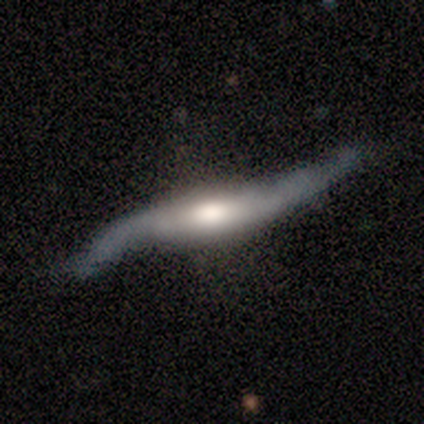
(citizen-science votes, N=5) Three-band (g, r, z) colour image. It shows a featured or disk galaxy (100%) with a weak bar (50%, tied with no), 2 (100%) loose (100%) spiral arms (100%) and a moderate central bulge (75%). Merging: none (100%).